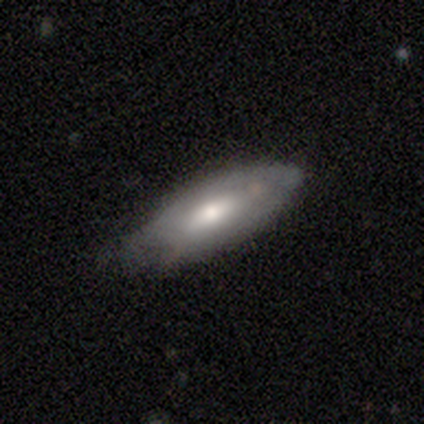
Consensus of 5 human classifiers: Smooth or featured? featured or disk (80%)
Edge-on disk? no (100%)
Bar? no (75%)
Spiral arms? yes (50%, tied with no)
Spiral winding? tight (100%)
Spiral arm count? can't tell (100%)
Bulge size? small (100%)
Merging? none (60%)